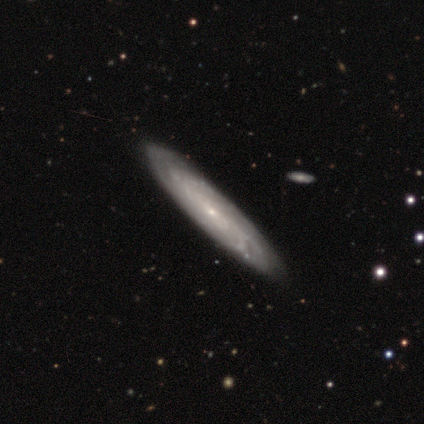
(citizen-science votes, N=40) Smooth or featured?
  - featured or disk: 82% *
  - smooth: 15%
  - star or artifact: 2%
Edge-on disk?
  - no: 67% *
  - yes: 33%
Bar?
  - no: 68% *
  - weak: 23%
  - strong: 9%
Spiral arms?
  - yes: 86% *
  - no: 14%
Spiral winding?
  - tight: 63% *
  - medium: 37%
  - loose: 0%
Spiral arm count?
  - can't tell: 53% *
  - 2: 16%
  - 3: 11%
  - 4: 11%
  - more than 4: 11%
  - 1: 0%
Bulge size?
  - small: 86% *
  - none: 9%
  - moderate: 5%
  - dominant: 0%
  - large: 0%
Merging?
  - none: 62% *
  - minor disturbance: 3%
  - major disturbance: 3%
  - merger: 0%